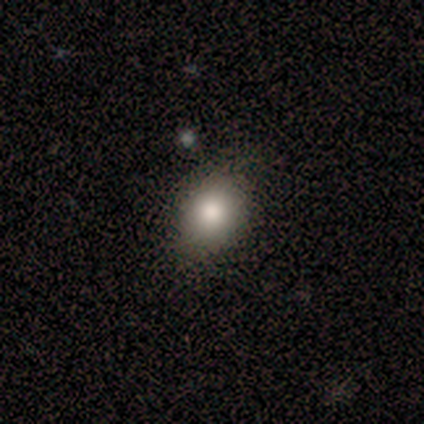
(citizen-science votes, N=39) Smooth or featured? smooth (87%)
How rounded? in between (71%)
Merging? none (86%)